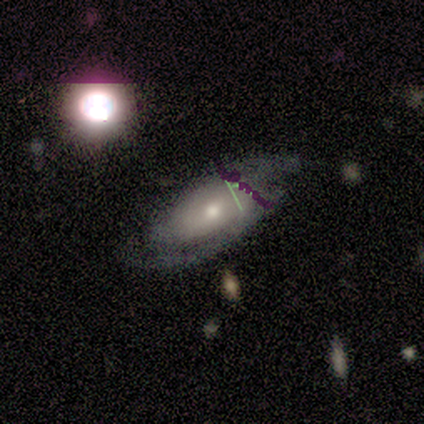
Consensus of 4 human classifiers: smooth-or-featured: featured or disk: 75% | star or artifact: 25% | smooth: 0%
  disk-edge-on: no: 100% | yes: 0%
    bar: no: 67% | weak: 33% | strong: 0%
    has-spiral-arms: yes: 100% | no: 0%
      spiral-winding: tight: 67% | medium: 33% | loose: 0%
      spiral-arm-count: 2: 67% | can't tell: 33% | 1: 0% | 3: 0% | 4: 0% | more than 4: 0%
    bulge-size: moderate: 67% | large: 33% | dominant: 0% | small: 0% | none: 0%
  merging: none: 67% | minor disturbance: 33% | major disturbance: 0% | merger: 0%